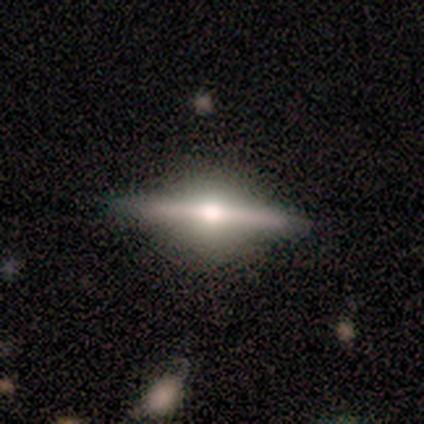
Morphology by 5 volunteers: A featured or disk galaxy (60%) viewed edge-on (100%) with a rounded central bulge (100%).

Vote fractions:
- Smooth or featured? featured or disk: 60% / smooth: 20% / star or artifact: 20%
- Edge-on disk? yes: 100% / no: 0%
- Edge-on bulge? rounded: 100% / boxy: 0% / none: 0%
- Merging? none: 50% / minor disturbance: 25% / merger: 25% / major disturbance: 0%